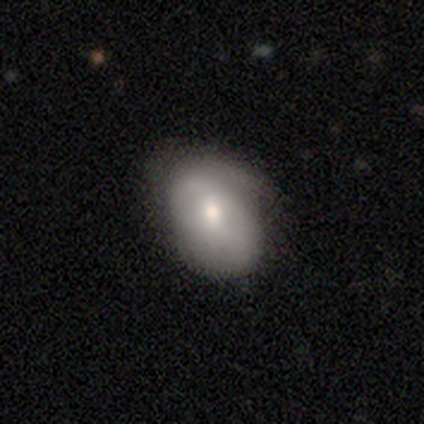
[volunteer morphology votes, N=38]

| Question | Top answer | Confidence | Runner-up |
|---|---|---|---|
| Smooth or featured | smooth | 68% | featured or disk (26%) |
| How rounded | in between | 92% | round (8%) |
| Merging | none | 56% | minor disturbance (42%) |